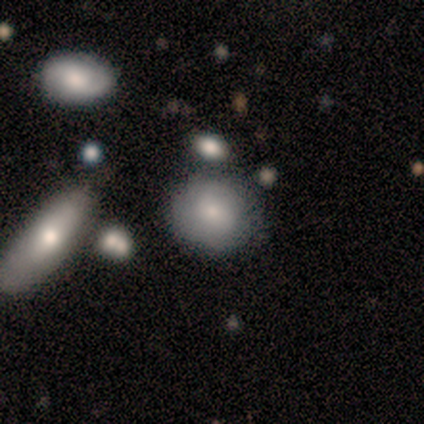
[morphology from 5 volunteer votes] smooth-or-featured: featured or disk: 40% (tied) | star or artifact: 40% (tied) | smooth: 20%
  disk-edge-on: no: 100% | yes: 0%
    bar: no: 100% | strong: 0% | weak: 0%
    has-spiral-arms: yes: 50% (tied) | no: 50% (tied)
      spiral-winding: tight: 100% | medium: 0% | loose: 0%
      spiral-arm-count: can't tell: 100% | 1: 0% | 2: 0% | 3: 0% | 4: 0% | more than 4: 0%
    bulge-size: dominant: 50% (tied) | small: 50% (tied) | large: 0% | moderate: 0% | none: 0%
  merging: minor disturbance: 67% | none: 33% | major disturbance: 0% | merger: 0%